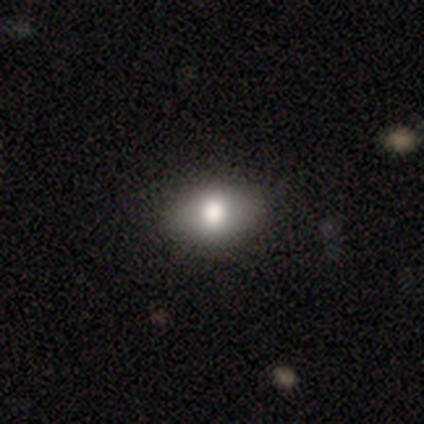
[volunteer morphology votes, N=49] Volunteers were most divided on "how rounded": in between: 62%, round: 36%, cigar-shaped: 3%. More confident: merging — none (81%); smooth or featured — smooth (80%).